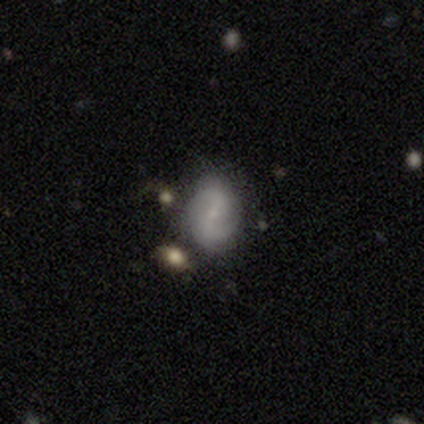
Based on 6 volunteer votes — Smooth or featured? 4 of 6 (67%) said featured or disk. Edge-on disk? 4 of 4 (100%) said no. Bar? 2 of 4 (50%, tied with no) said strong. Spiral arms? 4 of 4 (100%) said yes. Spiral winding? 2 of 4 (50%, tied with loose) said medium. Spiral arm count? 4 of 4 (100%) said 2. Bulge size? 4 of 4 (100%) said small. Merging? 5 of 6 (83%) said none.